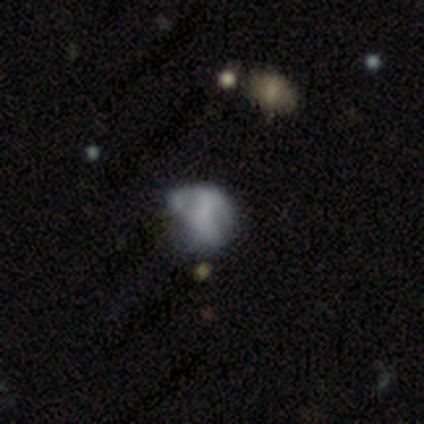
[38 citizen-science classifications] Morphology: type=featured or disk (50%); edge-on=no (100%); bar=no (95%); spiral arms=no (95%); bulge=none (79%); merging=none (32%, tied with minor disturbance).